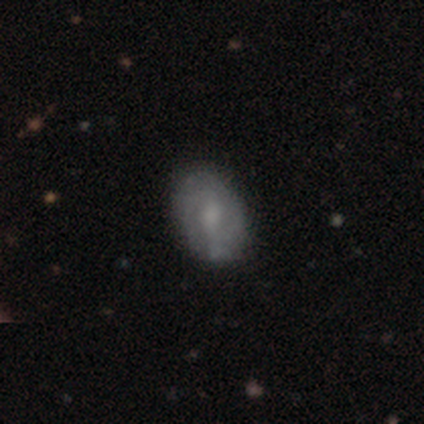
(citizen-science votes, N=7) This is possibly a smooth galaxy (57%). How rounded: clearly in between (100%). Merging: clearly none (100%).